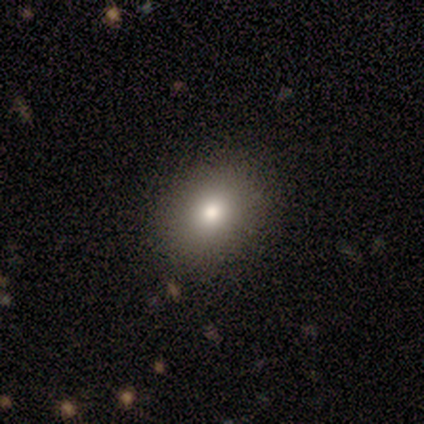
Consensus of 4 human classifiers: A smooth galaxy with no disk features (75%) that is round (67%). Merging: none (100%).